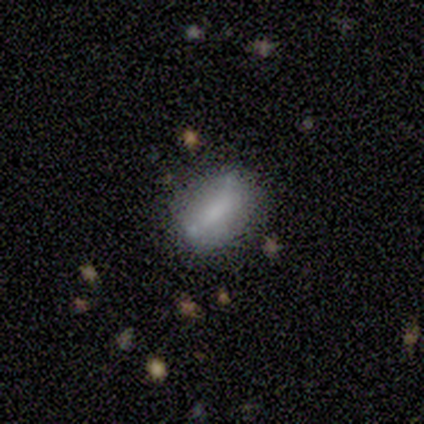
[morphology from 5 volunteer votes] A smooth galaxy with no disk features (60%) that is in between round and cigar-shaped (100%). Merging: none (60%).